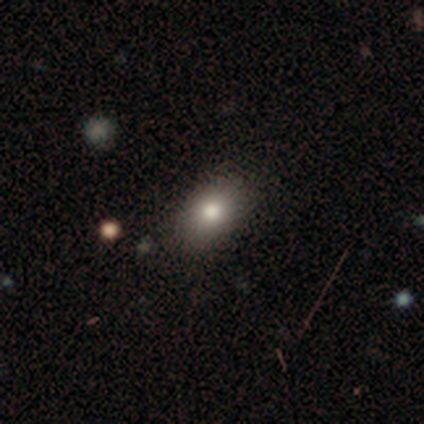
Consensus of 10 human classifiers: Smooth or featured? 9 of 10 (90%) said smooth. How rounded? 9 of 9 (100%) said in between. Merging? 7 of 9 (78%) said none.